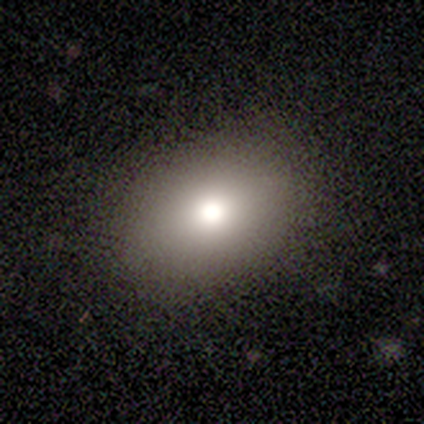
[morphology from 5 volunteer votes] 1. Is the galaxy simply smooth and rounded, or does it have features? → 60% smooth, 20% featured or disk, 20% star or artifact.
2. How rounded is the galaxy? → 67% in between, 33% round, 0% cigar-shaped.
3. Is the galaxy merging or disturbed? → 100% none, 0% minor disturbance, 0% major disturbance, 0% merger.